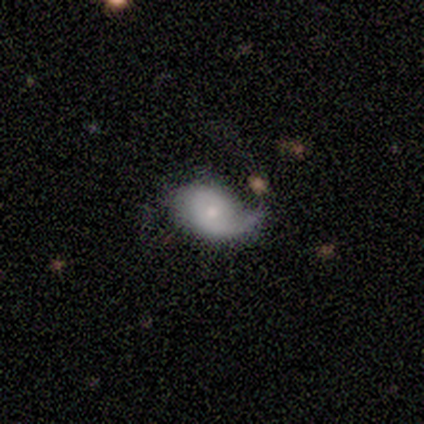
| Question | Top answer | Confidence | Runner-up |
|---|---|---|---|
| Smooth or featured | featured or disk | 60% | smooth (40%) |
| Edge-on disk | no | 100% | — |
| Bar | no | 100% | — |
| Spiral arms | yes | 67% | no (33%) |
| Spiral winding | loose | 100% | — |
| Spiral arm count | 2 | 100% | — |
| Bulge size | moderate | 67% | small (33%) |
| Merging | none | 40% | tied: minor disturbance (40%) |